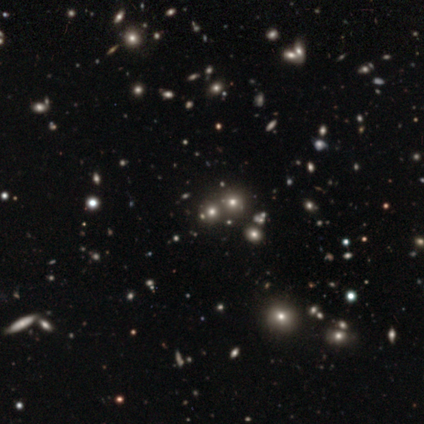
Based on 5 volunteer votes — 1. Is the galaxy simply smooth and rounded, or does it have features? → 60% star or artifact, 40% smooth, 0% featured or disk.